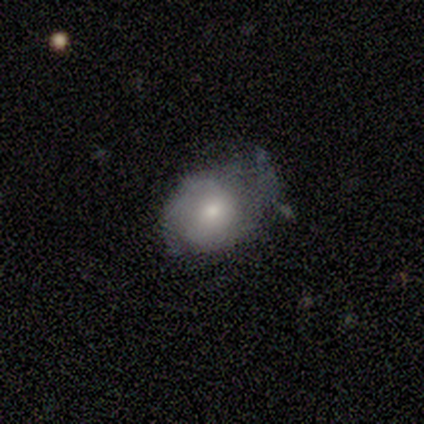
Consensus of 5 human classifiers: Morphology: type=featured or disk (60%); edge-on=no (100%); bar=no (100%); spiral arms=no (67%); bulge=small (67%); merging=minor disturbance (80%).